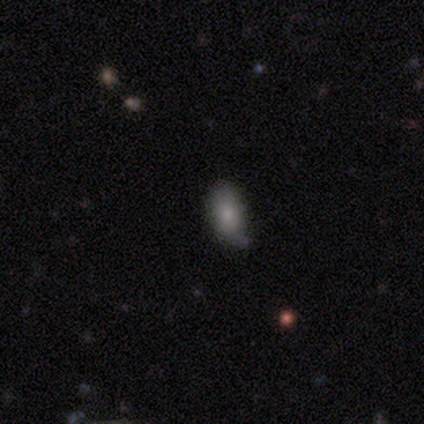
This appears to be a smooth galaxy with no disk features (100%) that is in between round and cigar-shaped (100%). Merging: none (50%, tied with minor disturbance).